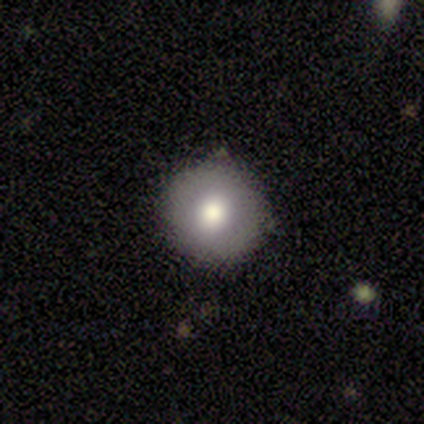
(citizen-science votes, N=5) Smooth or featured?
  - featured or disk: 60% *
  - smooth: 40%
  - star or artifact: 0%
Edge-on disk?
  - no: 100% *
  - yes: 0%
Bar?
  - no: 100% *
  - strong: 0%
  - weak: 0%
Spiral arms?
  - no: 100% *
  - yes: 0%
Bulge size?
  - moderate: 67% *
  - large: 33%
  - dominant: 0%
  - small: 0%
  - none: 0%
Merging?
  - none: 60% *
  - minor disturbance: 20%
  - major disturbance: 20%
  - merger: 0%